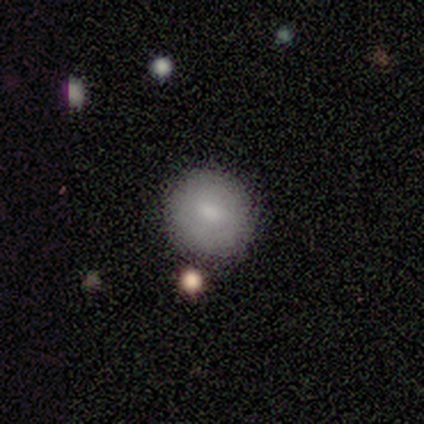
Consensus on every question: smooth or featured — smooth (100%); how rounded — round (100%); merging — none (100%).